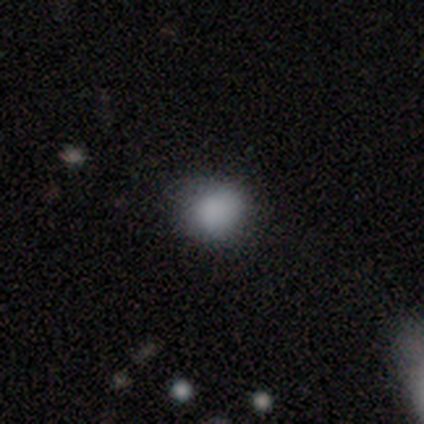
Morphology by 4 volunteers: Q: Smooth or featured?
A: smooth (100%)
Q: How rounded?
A: in between (75%); runner-up: round (25%)
Q: Merging?
A: none (75%); runner-up: minor disturbance (25%)